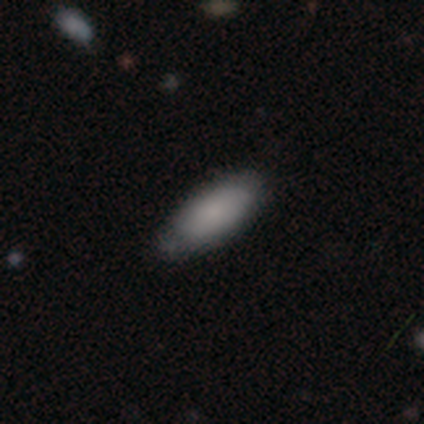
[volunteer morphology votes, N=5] smooth-or-featured: smooth: 100% | featured or disk: 0% | star or artifact: 0%
  how-rounded: in between: 80% | cigar-shaped: 20% | round: 0%
  merging: none: 60% | minor disturbance: 40% | major disturbance: 0% | merger: 0%